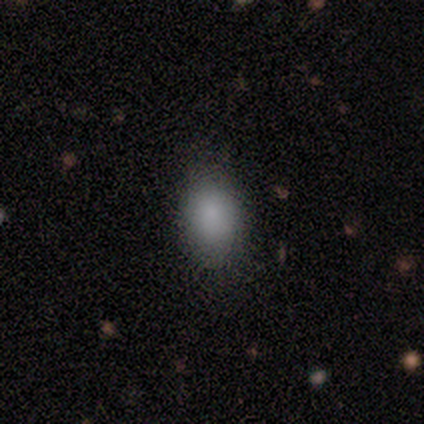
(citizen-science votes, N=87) Smooth or featured? 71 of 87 (82%) said smooth. How rounded? 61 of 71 (86%) said in between. Merging? 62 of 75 (83%) said none.